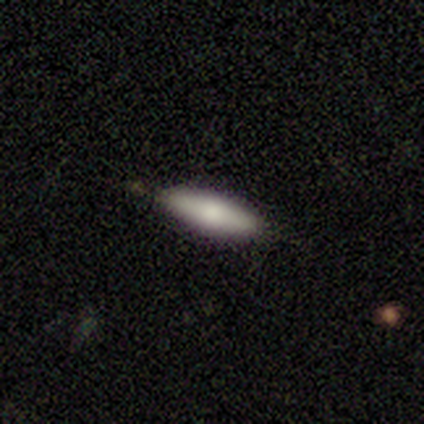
smooth 100%, featured or disk 0%, star or artifact 0%. Down the decision tree: how rounded — cigar-shaped (60%); merging — none (100%).